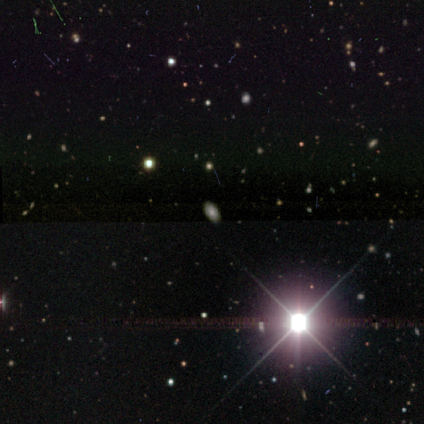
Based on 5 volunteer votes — This appears to be a star or artifact, not a galaxy (60%).